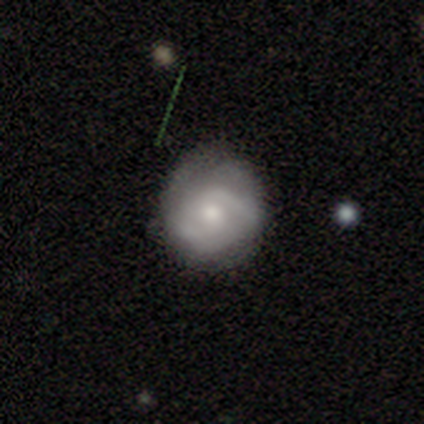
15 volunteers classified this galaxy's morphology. Smooth or featured? featured or disk (80%)
Edge-on disk? no (100%)
Bar? no (67%)
Spiral arms? yes (83%)
Spiral winding? medium (50%)
Spiral arm count? 2 (80%)
Bulge size? moderate (67%)
Merging? none (79%)